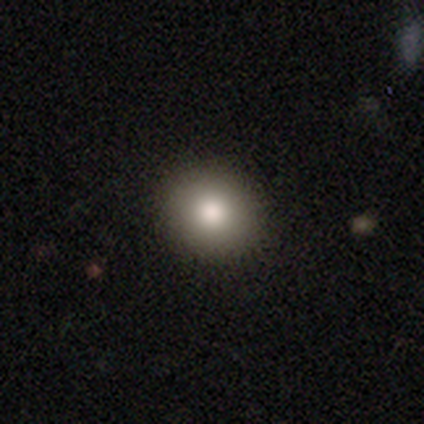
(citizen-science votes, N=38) Smooth or featured: smooth — 87% (star or artifact — 11%)
How rounded: round — 73% (in between — 27%)
Merging: none — 88% (minor disturbance — 9%)